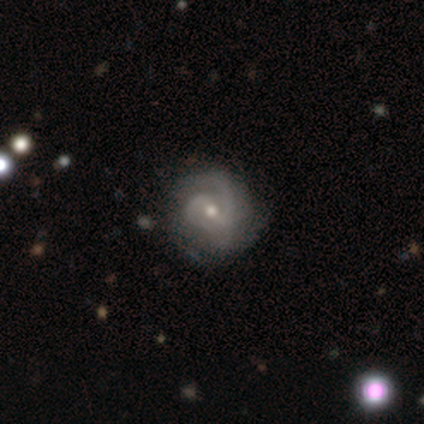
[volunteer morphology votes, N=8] This is clearly a featured or disk galaxy (88%). It is clearly not viewed edge-on (100%). Bar: likely weak (71%). Spiral arm pattern: clearly yes (100%). Spiral arm count: likely 2 (71%). Spiral winding: likely medium (71%). Central bulge: possibly small (57%). Merging: possibly none (50%).